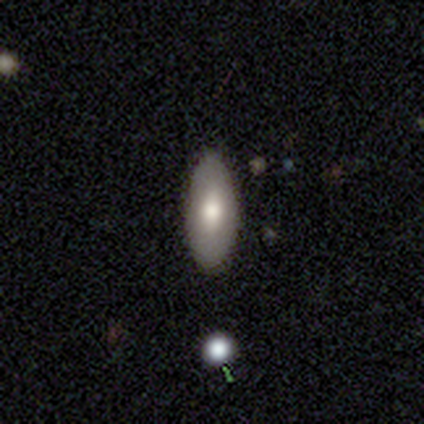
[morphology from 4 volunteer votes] smooth-or-featured: smooth: 100% | featured or disk: 0% | star or artifact: 0%
  how-rounded: in between: 75% | round: 25% | cigar-shaped: 0%
  merging: none: 50% (tied) | minor disturbance: 50% (tied) | major disturbance: 0% | merger: 0%